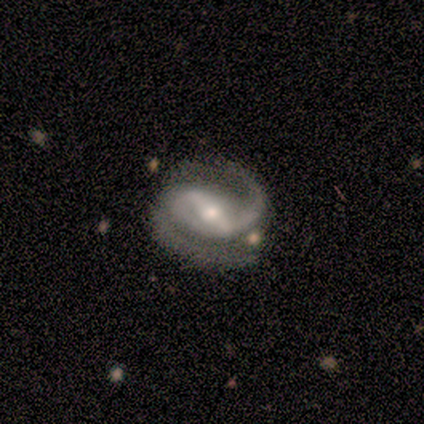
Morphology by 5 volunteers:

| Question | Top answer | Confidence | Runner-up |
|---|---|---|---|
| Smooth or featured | featured or disk | 100% | — |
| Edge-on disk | no | 100% | — |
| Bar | strong | 80% | weak (20%) |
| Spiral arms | yes | 100% | — |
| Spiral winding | tight | 40% | tied: medium (40%) |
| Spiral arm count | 2 | 100% | — |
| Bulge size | small | 60% | large (20%) |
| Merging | none | 100% | — |